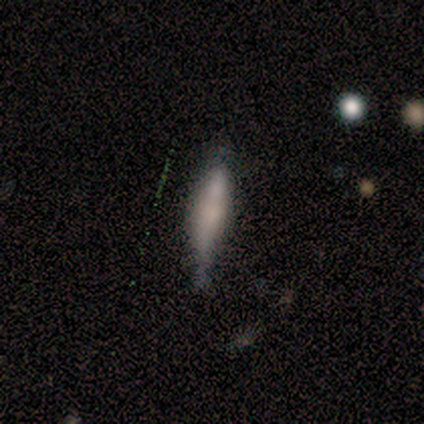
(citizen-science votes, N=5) smooth 80%, featured or disk 20%, star or artifact 0%. Down the decision tree: how rounded — cigar-shaped (100%); merging — none (100%).